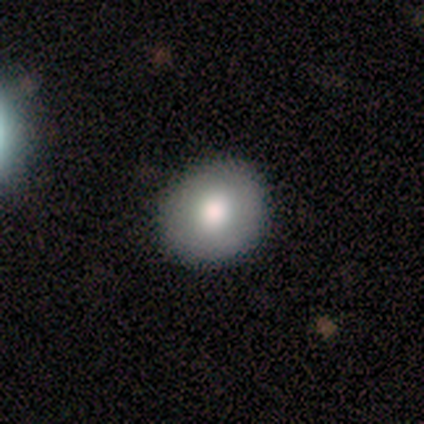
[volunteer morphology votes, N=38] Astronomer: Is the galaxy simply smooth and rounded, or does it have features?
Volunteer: smooth — 79%.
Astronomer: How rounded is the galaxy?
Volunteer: round — 83%.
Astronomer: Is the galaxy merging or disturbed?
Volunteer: none — 86%.